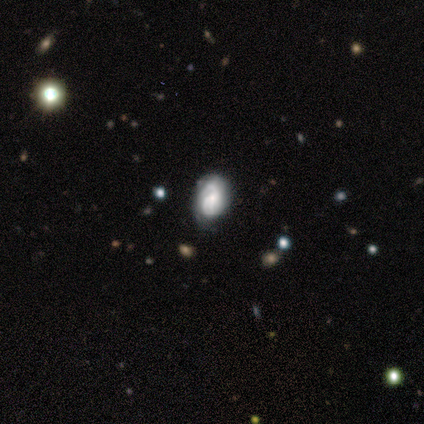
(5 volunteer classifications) This appears to be a featured or disk galaxy (60%) with no bar (100%), 2 (100%) medium (50%, tied with loose) spiral arms (100%) and a moderate central bulge (50%, tied with small). Merging: minor disturbance (50%).